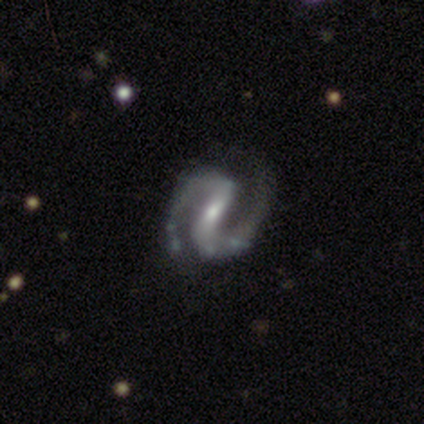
This is clearly a featured or disk galaxy (100%). It is clearly not viewed edge-on (100%). Bar: clearly strong (80%). Spiral arm pattern: clearly yes (100%). Spiral arm count: clearly 2 (100%). Spiral winding: likely medium (60%). Central bulge: clearly small (100%). Merging: likely none (60%).